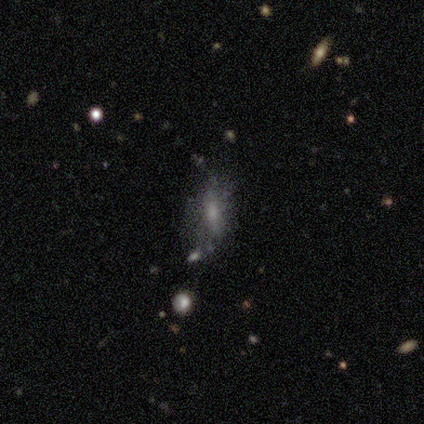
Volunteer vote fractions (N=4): Smooth or featured? smooth (75%)
How rounded? in between (67%)
Merging? none (25%, tied with minor disturbance, major disturbance and merger)